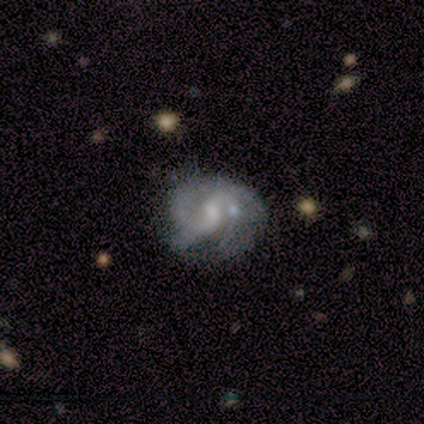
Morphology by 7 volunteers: This is clearly a featured or disk galaxy (86%). It is clearly not viewed edge-on (100%). Bar: likely weak (67%). Spiral arm pattern: clearly yes (83%). Spiral arm count: likely 2 (60%). Spiral winding: clearly medium (80%). Central bulge: likely moderate (67%). Merging: marginally none (43%).